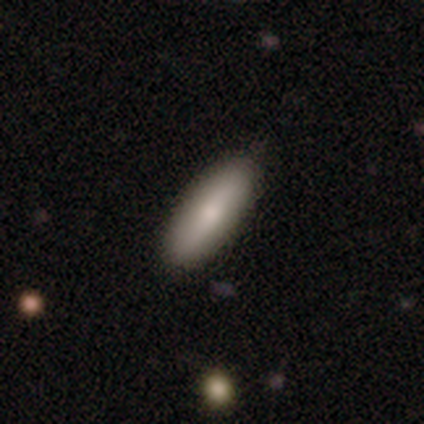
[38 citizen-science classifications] smooth_or_featured: smooth (p=0.97) [alt: star or artifact p=0.03]
how_rounded: in between (p=0.62) [alt: cigar-shaped p=0.38]
merging: none (p=0.89) [alt: minor disturbance p=0.08]